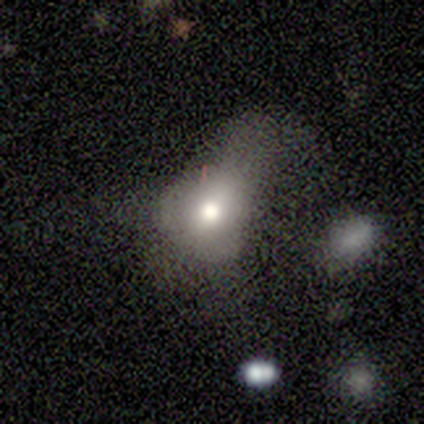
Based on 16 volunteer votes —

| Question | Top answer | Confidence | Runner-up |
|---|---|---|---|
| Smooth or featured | smooth | 75% | featured or disk (25%) |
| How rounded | round | 58% | in between (33%) |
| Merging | major disturbance | 38% | minor disturbance (31%) |